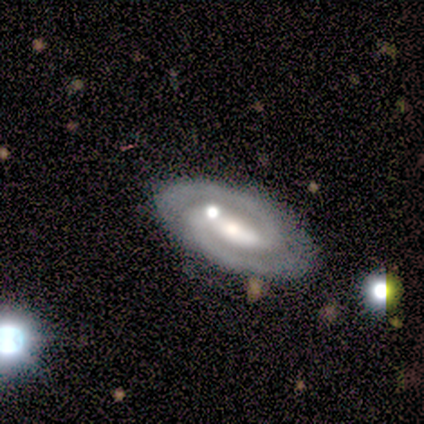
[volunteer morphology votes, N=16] featured or disk 81%, smooth 12%, star or artifact 6%. Down the decision tree: edge-on disk — no (92%); bar — strong (50%); spiral arms — yes (92%); spiral arm count — 2 (91%); spiral winding — tight (64%); bulge size — moderate (83%); merging — none (67%).